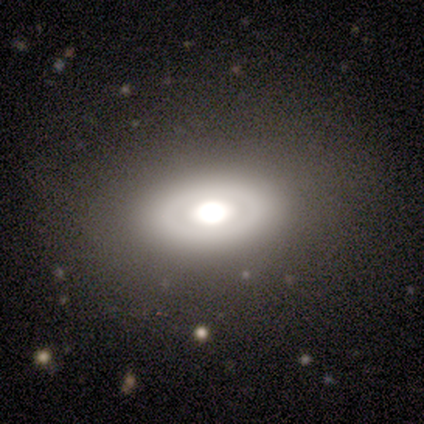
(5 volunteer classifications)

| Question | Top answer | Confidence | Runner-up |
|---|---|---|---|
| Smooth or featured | smooth | 40% | tied: featured or disk (40%) |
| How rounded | in between | 100% | — |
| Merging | none | 100% | — |